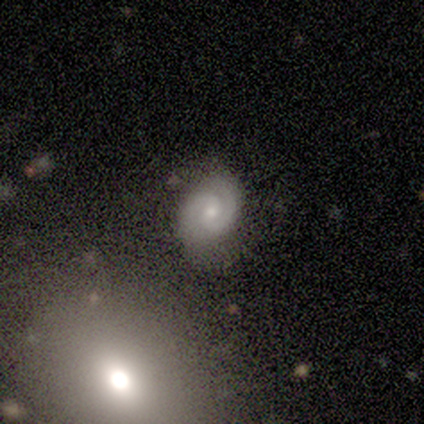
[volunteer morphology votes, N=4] smooth-or-featured: smooth: 50% (tied) | featured or disk: 50% (tied) | star or artifact: 0%
  how-rounded: in between: 100% | round: 0% | cigar-shaped: 0%
  merging: none: 50% (tied) | major disturbance: 50% (tied) | minor disturbance: 0% | merger: 0%